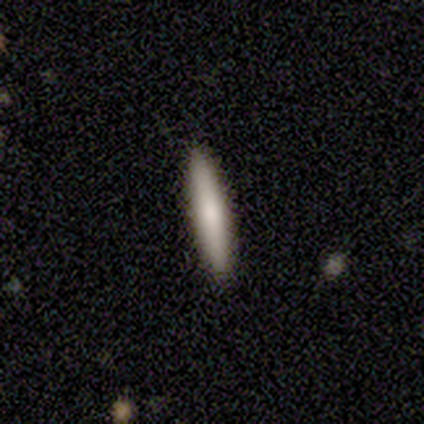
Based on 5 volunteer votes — Q: Smooth or featured?
A: smooth (80%); runner-up: featured or disk (20%)
Q: How rounded?
A: cigar-shaped (100%)
Q: Merging?
A: none (80%); runner-up: minor disturbance (20%)